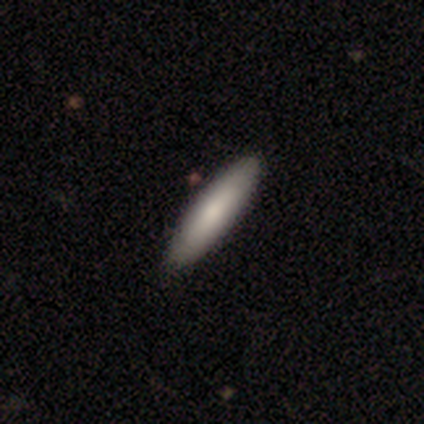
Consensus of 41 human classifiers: Smooth or featured: smooth — 78% (featured or disk — 20%)
How rounded: cigar-shaped — 56% (in between — 44%)
Merging: none — 92% (minor disturbance — 8%)